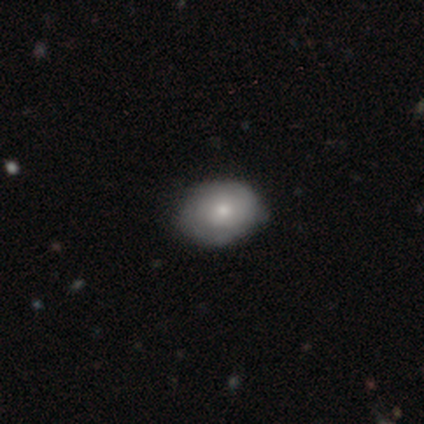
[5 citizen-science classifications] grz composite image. It shows a smooth galaxy with no disk features (80%) that is in between round and cigar-shaped (100%). Merging: none (80%).